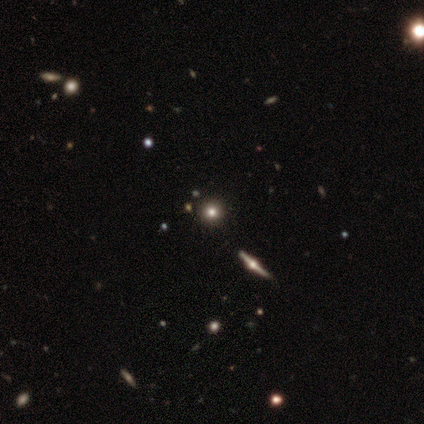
smooth-or-featured: smooth: 40% (tied) | star or artifact: 40% (tied) | featured or disk: 20%
  how-rounded: round: 50% (tied) | cigar-shaped: 50% (tied) | in between: 0%
  merging: none: 67% | minor disturbance: 33% | major disturbance: 0% | merger: 0%